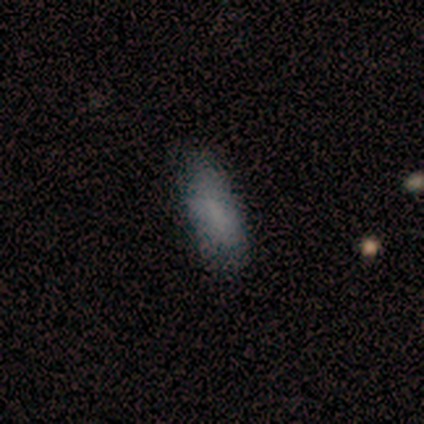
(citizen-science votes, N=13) A smooth galaxy with no disk features (62%) that is in between round and cigar-shaped (75%).

Vote fractions:
- Smooth or featured? smooth: 62% / star or artifact: 31% / featured or disk: 8%
- How rounded? in between: 75% / cigar-shaped: 25% / round: 0%
- Merging? none: 67% / minor disturbance: 33% / major disturbance: 0% / merger: 0%